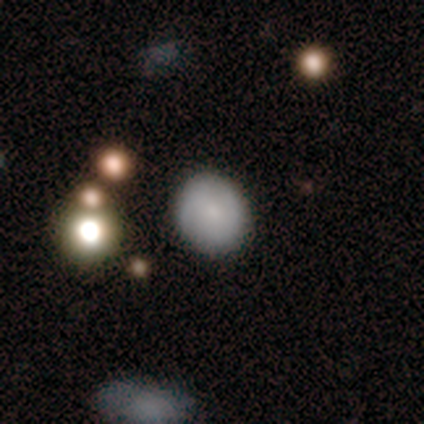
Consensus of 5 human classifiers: Smooth or featured?
  - smooth: 60% *
  - featured or disk: 20%
  - star or artifact: 20%
How rounded?
  - round: 67% *
  - in between: 33%
  - cigar-shaped: 0%
Merging?
  - none: 100% *
  - minor disturbance: 0%
  - major disturbance: 0%
  - merger: 0%